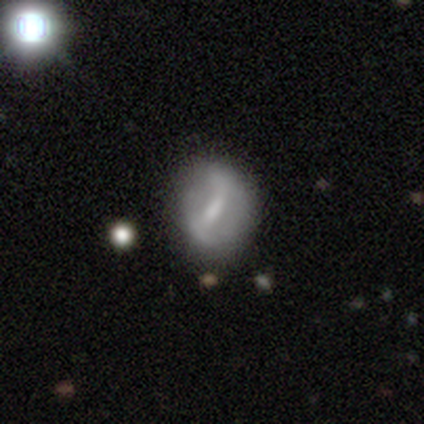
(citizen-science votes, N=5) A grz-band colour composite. It shows a smooth galaxy with no disk features (80%) that is round (50%). Merging: minor disturbance (40%, tied with major disturbance).